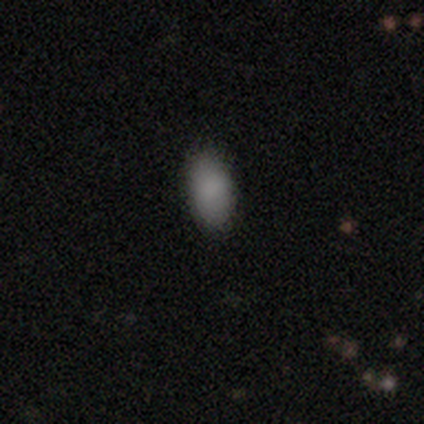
Overall: smooth (86%). How rounded: in between (100%). Merging: none (100%).